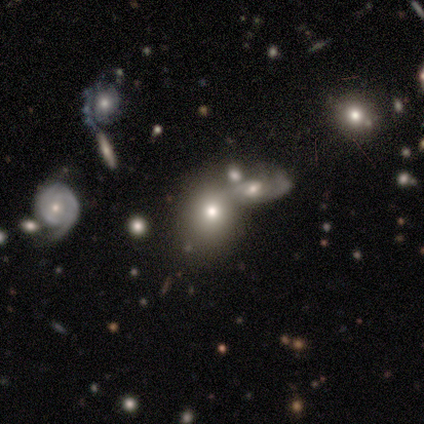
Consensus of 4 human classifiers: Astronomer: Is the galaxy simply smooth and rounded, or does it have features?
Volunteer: star or artifact — 50%.